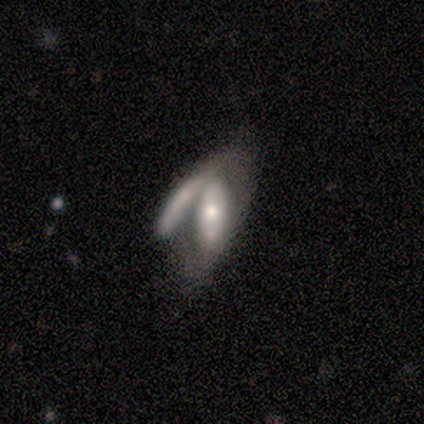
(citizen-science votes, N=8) A featured or disk galaxy (62%) with no bar (75%), no spiral arms (75%) and a moderate central bulge (50%). Merging: merger (88%).